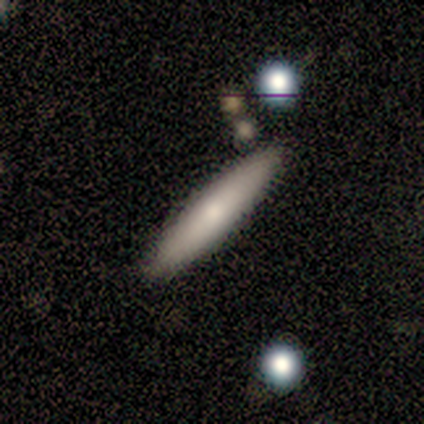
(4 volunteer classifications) smooth_or_featured: smooth (p=0.75) [alt: featured or disk p=0.25]
how_rounded: cigar-shaped (p=1.00)
merging: none (p=0.50) [alt: major disturbance p=0.25]